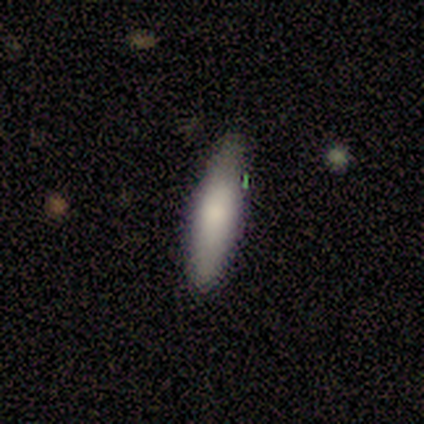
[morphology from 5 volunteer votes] smooth-or-featured: smooth: 80% | featured or disk: 20% | star or artifact: 0%
  how-rounded: cigar-shaped: 75% | in between: 25% | round: 0%
  merging: none: 100% | minor disturbance: 0% | major disturbance: 0% | merger: 0%